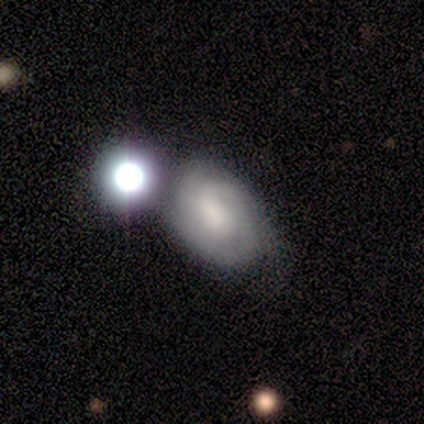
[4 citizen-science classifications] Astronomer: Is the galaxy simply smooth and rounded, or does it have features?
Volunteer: featured or disk — 75%.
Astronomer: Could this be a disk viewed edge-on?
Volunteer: no — 100%.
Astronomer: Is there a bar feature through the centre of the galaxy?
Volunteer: no — 67%.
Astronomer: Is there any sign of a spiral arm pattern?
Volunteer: yes — 100%.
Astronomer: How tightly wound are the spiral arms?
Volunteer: tight — 100%.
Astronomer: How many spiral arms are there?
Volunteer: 1 — 67%.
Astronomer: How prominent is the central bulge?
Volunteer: moderate — 67%.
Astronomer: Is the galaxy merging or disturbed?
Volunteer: none — 33%, tied with minor disturbance and major disturbance at 33%.